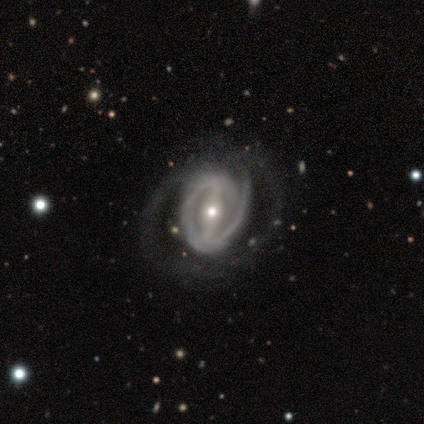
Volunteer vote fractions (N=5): Smooth or featured: featured or disk — 80% (smooth — 20%)
Edge-on disk: no — 100%
Bar: strong — 75% (weak — 25%)
Spiral arms: yes — 100%
Spiral winding: loose — 50% (tight — 25%)
Spiral arm count: 2 — 50% (1 — 25%)
Bulge size: moderate — 50% (tied with small — 50%)
Merging: major disturbance — 60% (none — 20%)